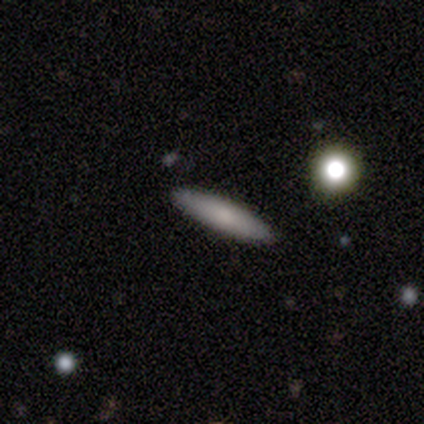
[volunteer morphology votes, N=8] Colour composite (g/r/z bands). It shows a smooth galaxy with no disk features (75%) that is cigar-shaped (83%). Merging: none (88%).